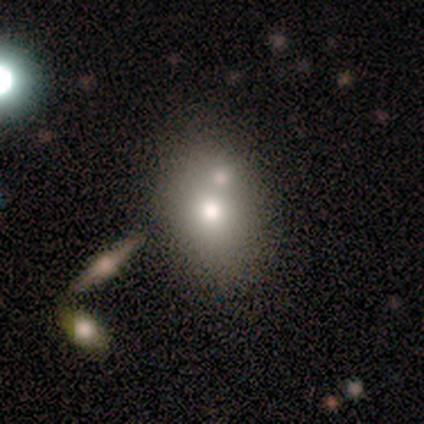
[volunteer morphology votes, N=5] Overall: smooth (60%; featured or disk 20%). How rounded: in between (100%). Merging: none (50%, tied with merger).